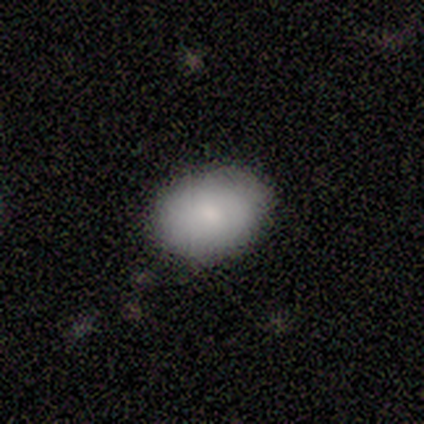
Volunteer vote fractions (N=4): A smooth galaxy with no disk features (100%) that is in between round and cigar-shaped (100%).

Vote fractions:
- Smooth or featured? smooth: 100% / featured or disk: 0% / star or artifact: 0%
- How rounded? in between: 100% / round: 0% / cigar-shaped: 0%
- Merging? none: 75% / minor disturbance: 25% / major disturbance: 0% / merger: 0%